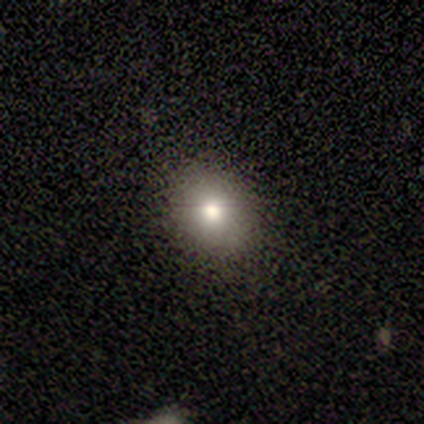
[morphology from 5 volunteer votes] smooth_or_featured: smooth (p=0.80) [alt: star or artifact p=0.20]
how_rounded: round (p=0.50) [tied with: in between p=0.50]
merging: none (p=0.75) [alt: minor disturbance p=0.25]